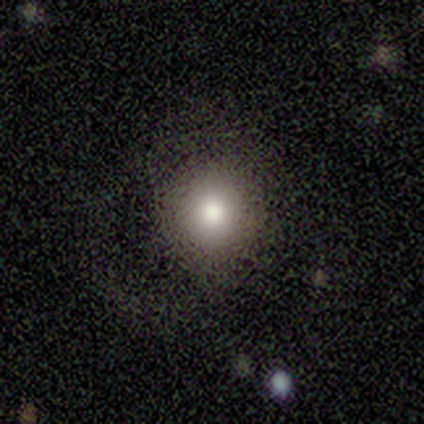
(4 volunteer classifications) Smooth or featured? smooth (100%)
How rounded? round (100%)
Merging? none (100%)